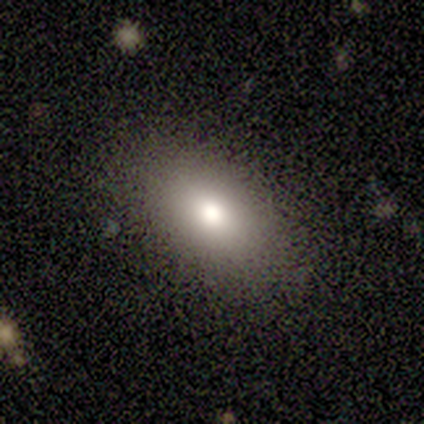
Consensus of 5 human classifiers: smooth 80%, star or artifact 20%, featured or disk 0%. Down the decision tree: how rounded — in between (100%); merging — none (100%).